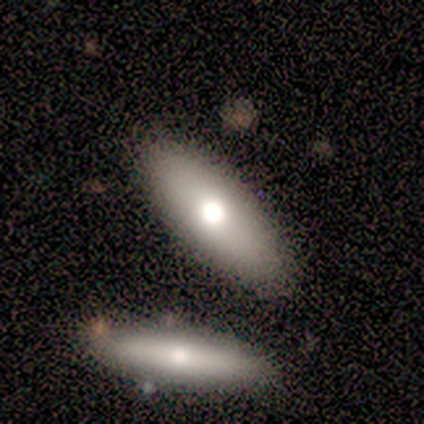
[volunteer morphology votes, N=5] Q: Smooth or featured?
A: smooth (60%); runner-up: featured or disk (40%)
Q: How rounded?
A: cigar-shaped (67%); runner-up: in between (33%)
Q: Merging?
A: none (60%); runner-up: minor disturbance (20%)